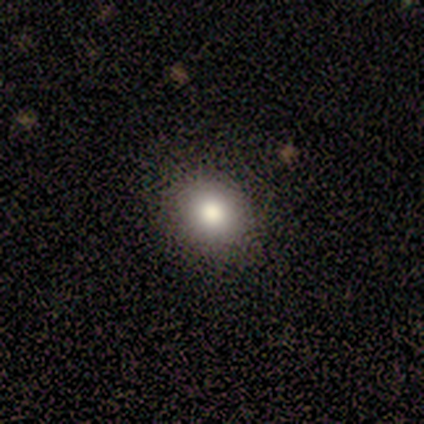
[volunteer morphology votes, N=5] smooth_or_featured: smooth (p=0.80) [alt: star or artifact p=0.20]
how_rounded: round (p=0.75) [alt: in between p=0.25]
merging: none (p=1.00)